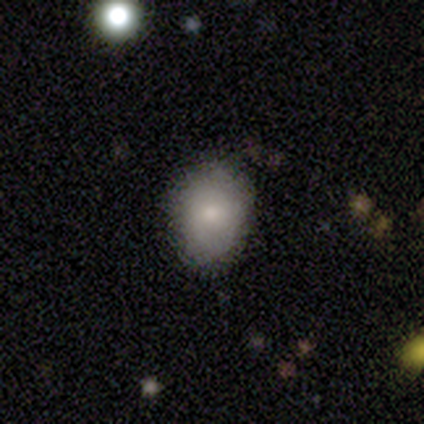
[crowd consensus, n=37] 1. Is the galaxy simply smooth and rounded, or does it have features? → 86% smooth, 8% star or artifact, 5% featured or disk.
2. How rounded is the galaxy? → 50% round (tied), 50% in between (tied), 0% cigar-shaped.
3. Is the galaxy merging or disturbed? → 85% none, 9% minor disturbance, 3% major disturbance, 3% merger.